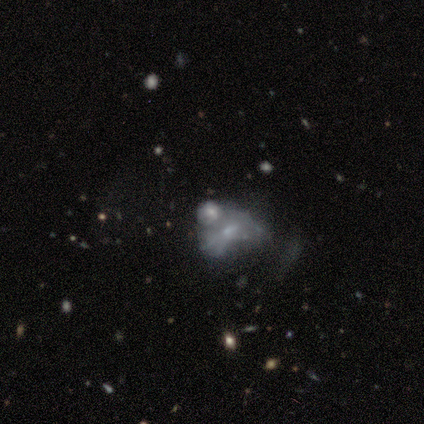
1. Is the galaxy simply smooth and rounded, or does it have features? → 60% smooth, 40% featured or disk, 0% star or artifact.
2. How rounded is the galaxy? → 67% in between, 33% round, 0% cigar-shaped.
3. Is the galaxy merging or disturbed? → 40% major disturbance (tied), 40% merger (tied), 20% none, 0% minor disturbance.